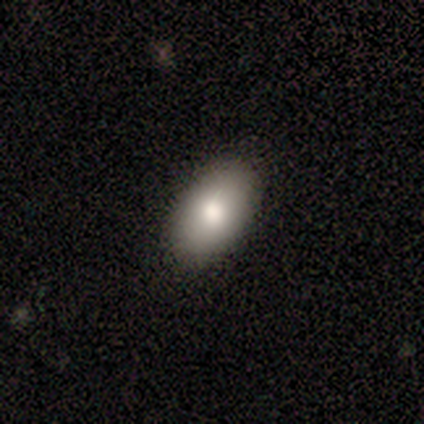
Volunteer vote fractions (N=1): Smooth or featured? smooth (100%)
How rounded? in between (100%)
Merging? none (100%)